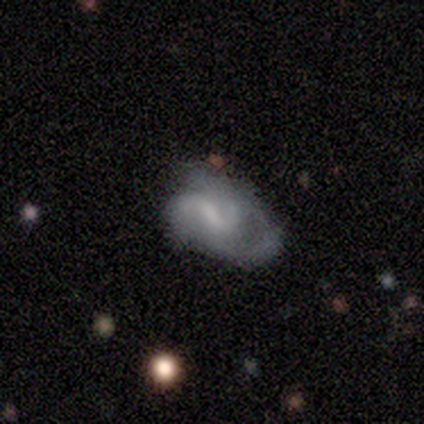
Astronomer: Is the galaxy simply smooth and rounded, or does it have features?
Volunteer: featured or disk — 60% (runner-up: smooth, 40%).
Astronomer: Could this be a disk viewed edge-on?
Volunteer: no — 100%.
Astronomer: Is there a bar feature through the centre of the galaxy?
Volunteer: weak — 67%.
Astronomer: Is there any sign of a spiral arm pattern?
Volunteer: yes — 100%.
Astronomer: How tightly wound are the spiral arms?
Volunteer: tight — 67%.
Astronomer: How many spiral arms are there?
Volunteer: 2 — 33%, tied with 3 and can't tell at 33%.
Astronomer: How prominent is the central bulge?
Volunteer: none — 67%.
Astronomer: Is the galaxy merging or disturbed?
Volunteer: none — 60% (runner-up: major disturbance, 40%).